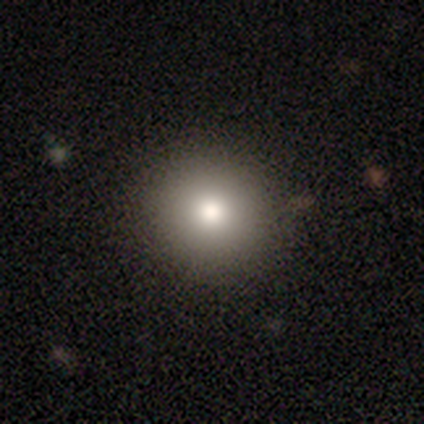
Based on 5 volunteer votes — Smooth or featured?
  - smooth: 60% *
  - featured or disk: 20%
  - star or artifact: 20%
How rounded?
  - in between: 67% *
  - round: 33%
  - cigar-shaped: 0%
Merging?
  - none: 100% *
  - minor disturbance: 0%
  - major disturbance: 0%
  - merger: 0%